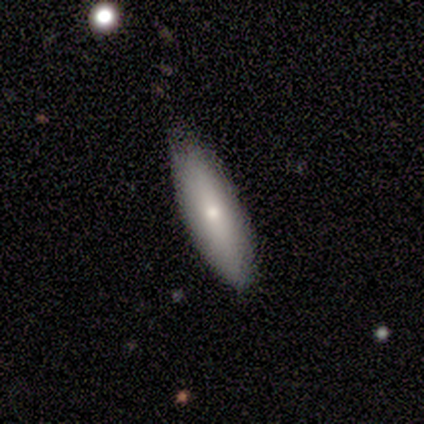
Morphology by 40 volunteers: type=smooth (70%); roundness=cigar-shaped (64%); merging=none (79%).